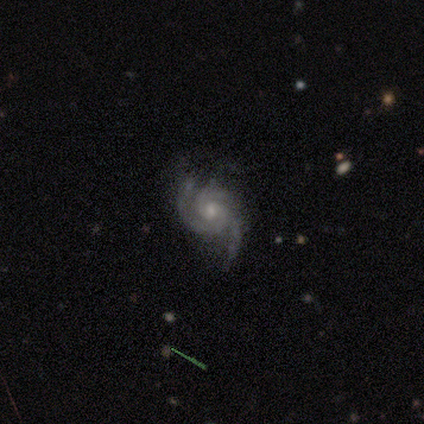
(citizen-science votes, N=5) A featured or disk galaxy (100%) with no bar (80%), 3 (60%) medium (60%) spiral arms (100%) and a moderate central bulge (60%).

Vote fractions:
- Smooth or featured? featured or disk: 100% / smooth: 0% / star or artifact: 0%
- Edge-on disk? no: 100% / yes: 0%
- Bar? no: 80% / weak: 20% / strong: 0%
- Spiral arms? yes: 100% / no: 0%
- Spiral winding? medium: 60% / tight: 40% / loose: 0%
- Spiral arm count? 3: 60% / 2: 20% / can't tell: 20% / 1: 0% / 4: 0% / more than 4: 0%
- Bulge size? moderate: 60% / small: 40% / dominant: 0% / large: 0% / none: 0%
- Merging? none: 60% / minor disturbance: 20% / major disturbance: 20% / merger: 0%